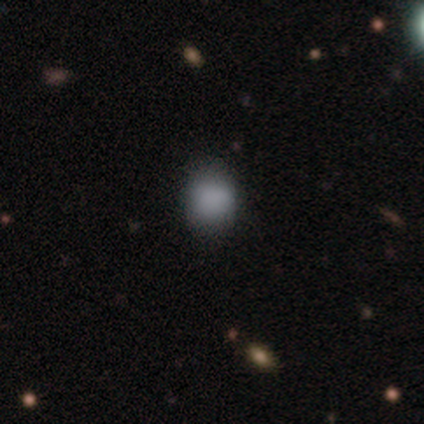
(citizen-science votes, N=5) Q: Smooth or featured?
A: smooth (100%)
Q: How rounded?
A: round (80%); runner-up: in between (20%)
Q: Merging?
A: none (80%); runner-up: major disturbance (20%)